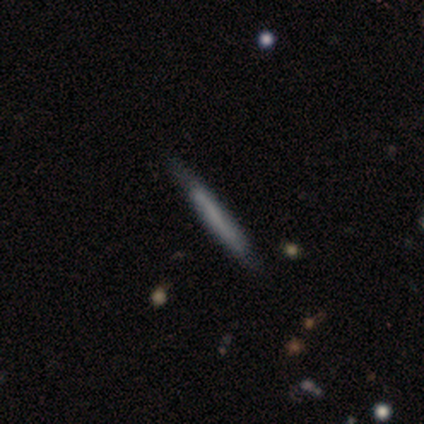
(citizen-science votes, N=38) Morphology: type=smooth (47%); roundness=cigar-shaped (100%); merging=none (80%).